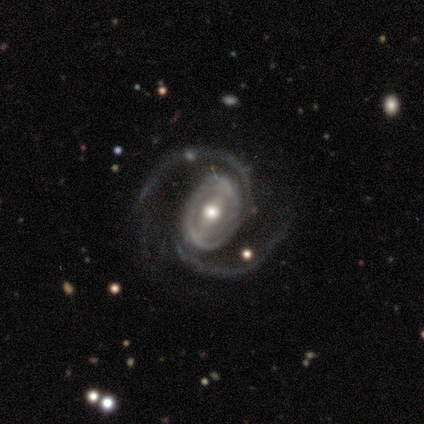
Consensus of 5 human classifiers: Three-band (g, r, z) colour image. It shows a featured or disk galaxy (100%) with a weak bar (80%), 2 (100%) medium (60%) spiral arms (100%) and a moderate central bulge (100%). Merging: minor disturbance (60%).